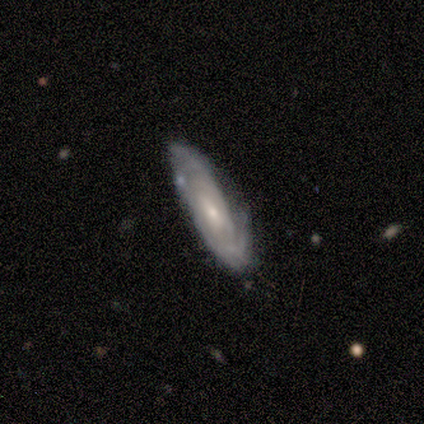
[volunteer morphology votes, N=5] type=featured or disk (80%); edge-on=no (100%); bar=weak (50%); spiral arms=yes (75%); winding=tight (67%); arm count=can't tell (67%); bulge=moderate (75%); merging=none (80%).